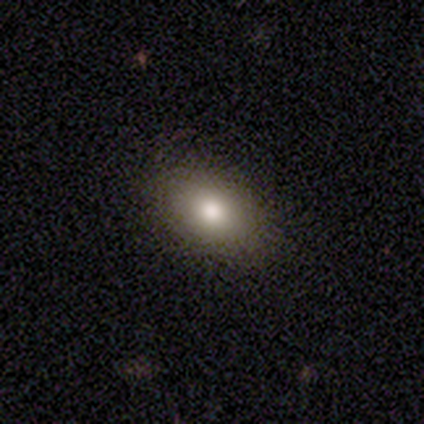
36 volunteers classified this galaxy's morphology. Volunteers were most divided on "smooth or featured": smooth: 81%, featured or disk: 11%, star or artifact: 8%. More confident: how rounded — in between (93%); merging — none (88%).